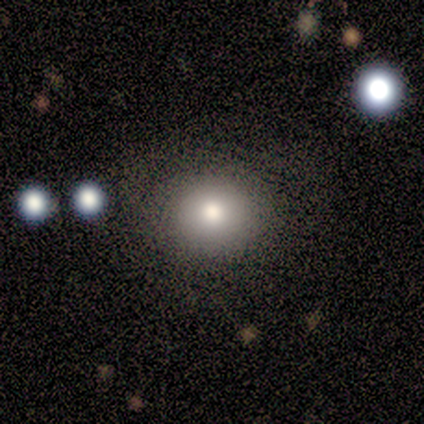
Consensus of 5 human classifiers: Smooth or featured? smooth (80%)
How rounded? round (100%)
Merging? none (100%)